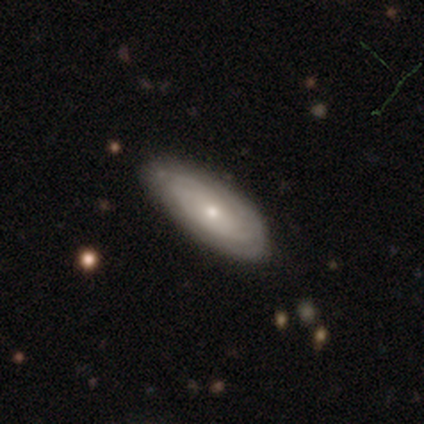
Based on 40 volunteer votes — Q: Smooth or featured?
A: featured or disk (65%); runner-up: smooth (35%)
Q: Edge-on disk?
A: no (85%); runner-up: yes (15%)
Q: Bar?
A: no (100%)
Q: Spiral arms?
A: yes (91%); runner-up: no (9%)
Q: Spiral winding?
A: tight (85%); runner-up: loose (10%)
Q: Spiral arm count?
A: can't tell (55%); runner-up: 2 (20%)
Q: Bulge size?
A: small (59%); runner-up: moderate (41%)
Q: Merging?
A: none (72%); runner-up: minor disturbance (18%)